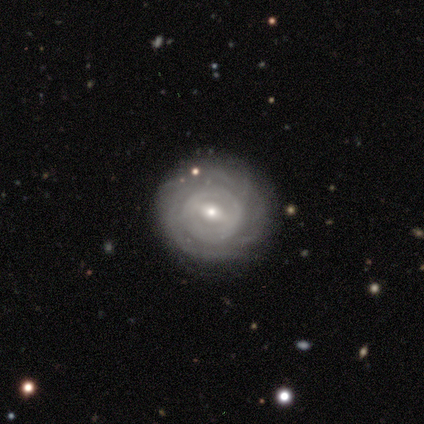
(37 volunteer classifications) A featured or disk galaxy (70%) with a weak bar (52%), tight (83%) spiral arms (72%) and a small central bulge (56%). Merging: none (89%).